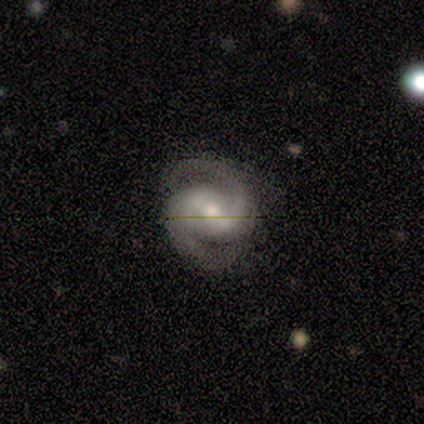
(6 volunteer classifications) featured or disk 100%, smooth 0%, star or artifact 0%. Down the decision tree: edge-on disk — no (100%); bar — weak (67%); spiral arms — yes (100%); spiral arm count — 2 (100%); spiral winding — medium (83%); bulge size — moderate (67%); merging — none (67%).